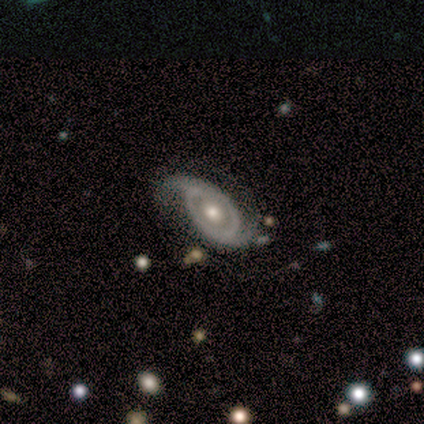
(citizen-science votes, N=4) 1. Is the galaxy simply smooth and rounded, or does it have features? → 75% featured or disk, 25% star or artifact, 0% smooth.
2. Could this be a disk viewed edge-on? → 100% no, 0% yes.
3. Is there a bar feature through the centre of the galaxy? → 67% no, 33% weak, 0% strong.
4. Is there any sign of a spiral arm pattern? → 100% yes, 0% no.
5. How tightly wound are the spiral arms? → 33% tight (tied), 33% medium (tied), 33% loose (tied).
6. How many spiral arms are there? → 100% 2, 0% 1, 0% 3, 0% 4, 0% more than 4, 0% can't tell.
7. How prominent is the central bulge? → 100% moderate, 0% dominant, 0% large, 0% small, 0% none.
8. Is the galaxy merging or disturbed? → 100% none, 0% minor disturbance, 0% major disturbance, 0% merger.